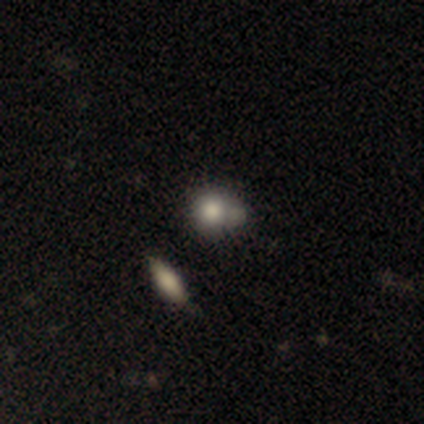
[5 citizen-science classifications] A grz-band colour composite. It shows a smooth galaxy with no disk features (100%) that is round (80%). Merging: none (40%, tied with merger).